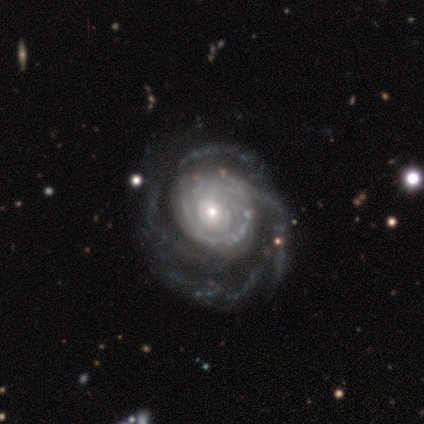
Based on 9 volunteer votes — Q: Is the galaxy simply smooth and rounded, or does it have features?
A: featured or disk — 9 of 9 (100%).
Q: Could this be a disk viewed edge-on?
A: no — 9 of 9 (100%).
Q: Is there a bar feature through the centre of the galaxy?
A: no — 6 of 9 (67%).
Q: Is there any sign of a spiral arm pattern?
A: yes — 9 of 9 (100%).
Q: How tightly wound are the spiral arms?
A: tight — 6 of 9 (67%).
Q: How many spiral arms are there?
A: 4 — 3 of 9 (33%).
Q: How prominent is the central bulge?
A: moderate — 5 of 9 (56%).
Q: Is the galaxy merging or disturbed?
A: none — 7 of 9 (78%).